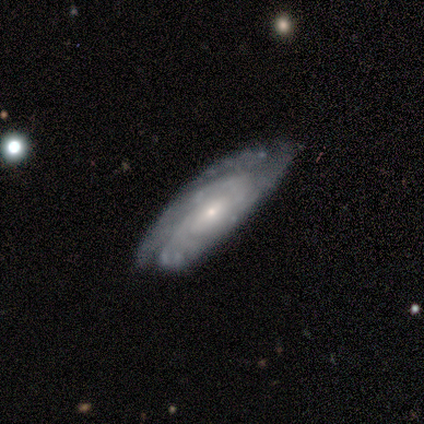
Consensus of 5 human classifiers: Smooth or featured: featured or disk — 100%
Edge-on disk: no — 100%
Bar: no — 60% (weak — 40%)
Spiral arms: yes — 100%
Spiral winding: tight — 80% (medium — 20%)
Spiral arm count: 3 — 40% (tied with can't tell — 40%)
Bulge size: small — 80% (none — 20%)
Merging: none — 80% (minor disturbance — 20%)